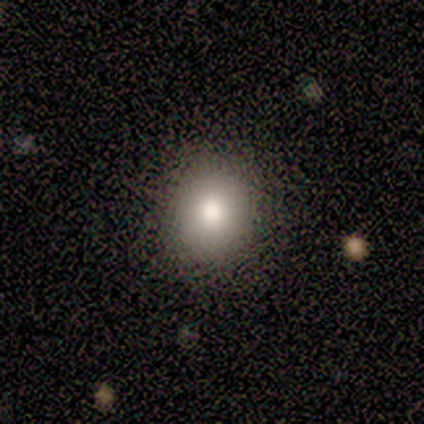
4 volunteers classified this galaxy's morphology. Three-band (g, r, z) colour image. It shows a smooth galaxy with no disk features (100%) that is round (75%). Merging: none (100%).